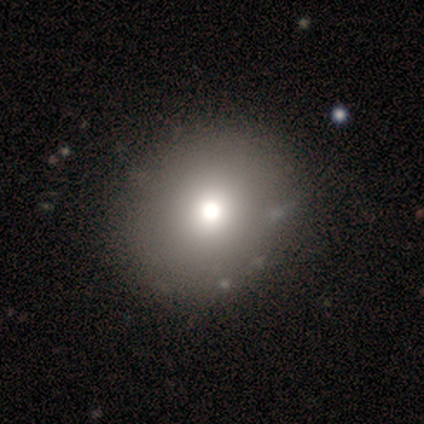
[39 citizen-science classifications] Morphology: type=smooth (77%); roundness=round (57%); merging=none (54%).